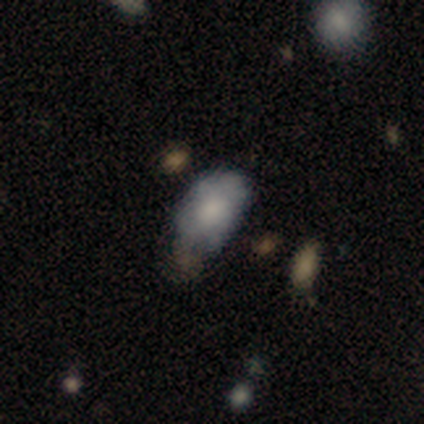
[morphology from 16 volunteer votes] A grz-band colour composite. It shows a smooth galaxy with no disk features (75%) that is in between round and cigar-shaped (100%). Merging: none (73%).